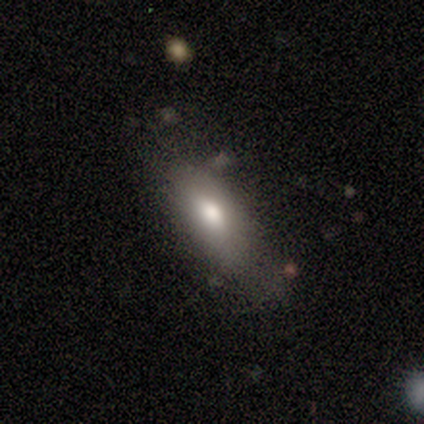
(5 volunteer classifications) smooth-or-featured: smooth: 80% | featured or disk: 20% | star or artifact: 0%
  how-rounded: in between: 50% (tied) | cigar-shaped: 50% (tied) | round: 0%
  merging: none: 40% (tied) | minor disturbance: 40% (tied) | major disturbance: 20% | merger: 0%